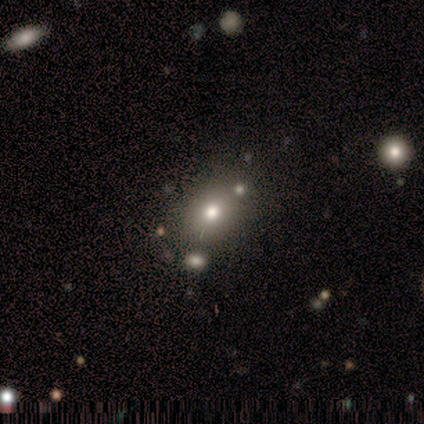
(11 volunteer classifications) A smooth galaxy with no disk features (64%) that is in between round and cigar-shaped (86%).

Vote fractions:
- Smooth or featured? smooth: 64% / star or artifact: 36% / featured or disk: 0%
- How rounded? in between: 86% / round: 14% / cigar-shaped: 0%
- Merging? none: 43% (tied) / minor disturbance: 43% (tied) / merger: 14% / major disturbance: 0%